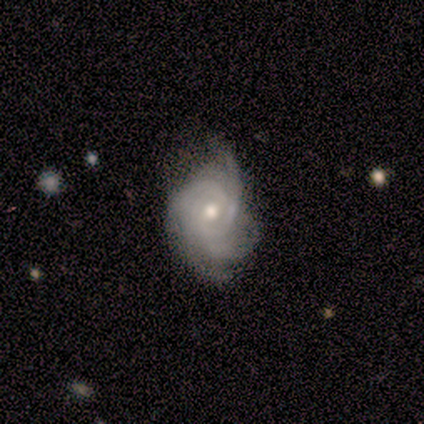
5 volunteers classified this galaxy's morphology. type=featured or disk (100%); edge-on=no (100%); bar=no (60%); spiral arms=yes (100%); winding=tight (100%); arm count=can't tell (40%); bulge=moderate (100%); merging=minor disturbance (60%).